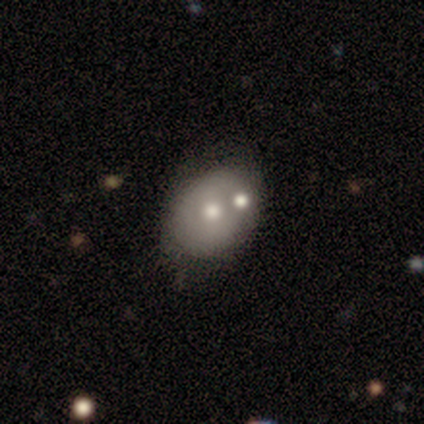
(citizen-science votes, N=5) Volunteers were most divided on "merging": none: 50%, minor disturbance: 25%, merger: 25%, major disturbance: 0%. More confident: how rounded — in between (100%); smooth or featured — smooth (60%).